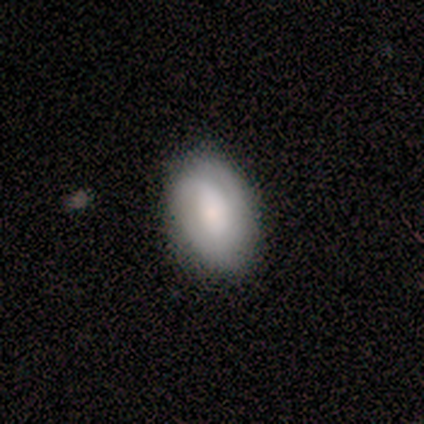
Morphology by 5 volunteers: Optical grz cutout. It shows a smooth galaxy with no disk features (60%) that is in between round and cigar-shaped (100%). Merging: none (100%).